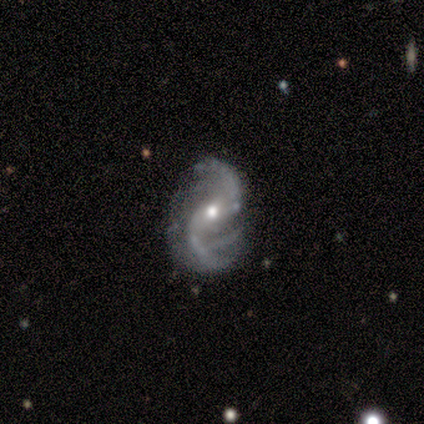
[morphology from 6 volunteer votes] Smooth or featured?
  - featured or disk: 100% *
  - smooth: 0%
  - star or artifact: 0%
Edge-on disk?
  - no: 100% *
  - yes: 0%
Bar?
  - weak: 67% *
  - strong: 17%
  - no: 17%
Spiral arms?
  - yes: 100% *
  - no: 0%
Spiral winding?
  - loose: 83% *
  - medium: 17%
  - tight: 0%
Spiral arm count?
  - 2: 33% * (tied)
  - 3: 33% * (tied)
  - 4: 17%
  - can't tell: 17%
  - 1: 0%
  - more than 4: 0%
Bulge size?
  - moderate: 67% *
  - small: 33%
  - dominant: 0%
  - large: 0%
  - none: 0%
Merging?
  - none: 83% *
  - major disturbance: 17%
  - minor disturbance: 0%
  - merger: 0%